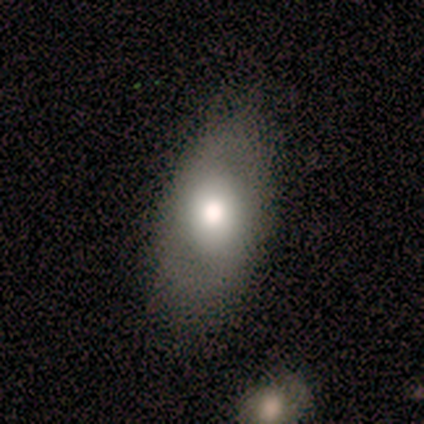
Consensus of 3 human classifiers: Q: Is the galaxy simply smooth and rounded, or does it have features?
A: featured or disk — 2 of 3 (67%).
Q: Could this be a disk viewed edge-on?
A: no — 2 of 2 (100%).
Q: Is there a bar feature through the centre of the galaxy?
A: weak — 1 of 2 (50%, tied with no).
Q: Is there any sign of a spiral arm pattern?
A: yes — 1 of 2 (50%, tied with no).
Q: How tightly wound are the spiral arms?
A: medium — 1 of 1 (100%).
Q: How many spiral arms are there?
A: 2 — 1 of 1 (100%).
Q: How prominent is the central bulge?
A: large — 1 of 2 (50%, tied with moderate).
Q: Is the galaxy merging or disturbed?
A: none — 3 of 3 (100%).